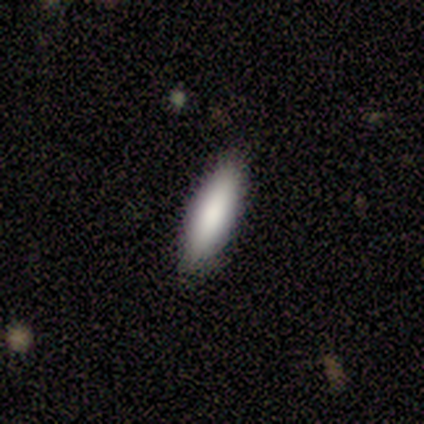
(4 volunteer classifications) smooth_or_featured: smooth (p=1.00)
how_rounded: in between (p=0.50) [tied with: cigar-shaped p=0.50]
merging: none (p=1.00)